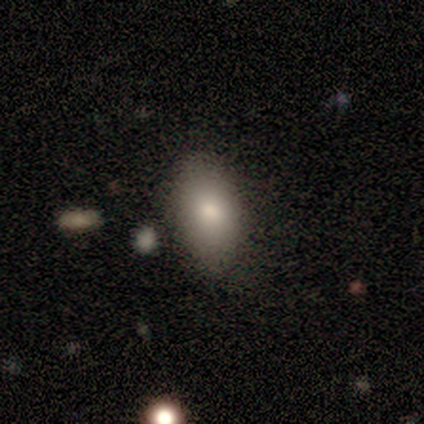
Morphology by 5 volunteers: Smooth or featured? 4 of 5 (80%) said smooth. How rounded? 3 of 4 (75%) said in between. Merging? 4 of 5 (80%) said none.